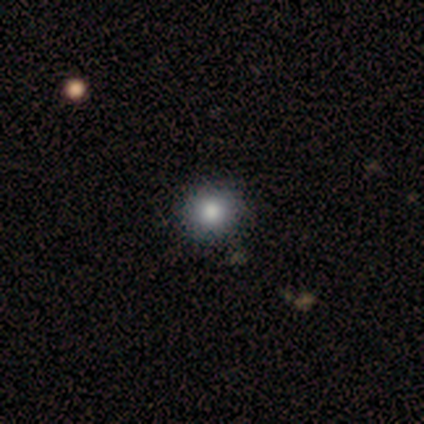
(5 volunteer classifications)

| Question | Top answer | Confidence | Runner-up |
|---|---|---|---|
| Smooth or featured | smooth | 80% | star or artifact (20%) |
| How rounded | round | 75% | in between (25%) |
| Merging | none | 100% | — |